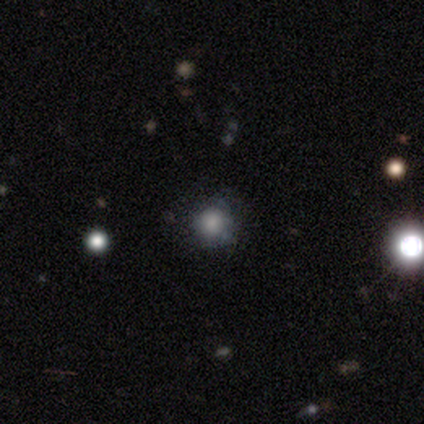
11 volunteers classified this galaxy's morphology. smooth 55%, featured or disk 36%, star or artifact 9%. Down the decision tree: how rounded — round (100%); merging — none (60%).